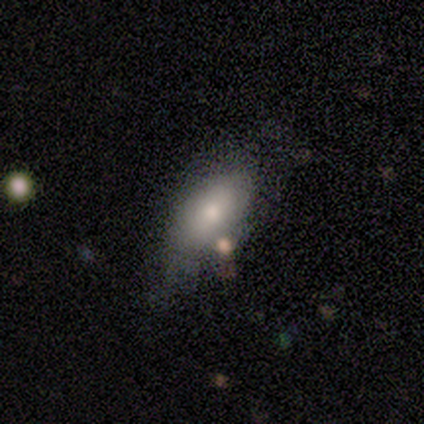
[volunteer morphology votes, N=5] Q: Smooth or featured?
A: smooth (60%); runner-up: featured or disk (40%)
Q: How rounded?
A: in between (100%)
Q: Merging?
A: none (60%); runner-up: minor disturbance (20%)